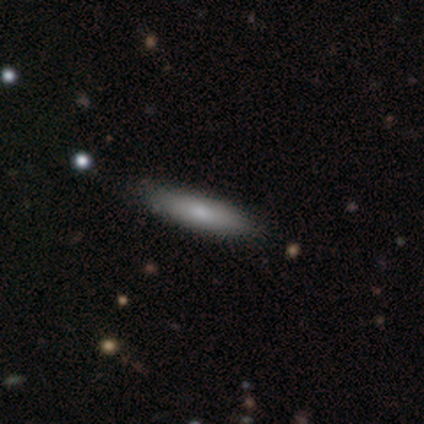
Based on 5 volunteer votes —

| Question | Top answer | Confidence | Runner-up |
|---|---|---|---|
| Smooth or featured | smooth | 80% | featured or disk (20%) |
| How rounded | cigar-shaped | 100% | — |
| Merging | none | 80% | minor disturbance (20%) |